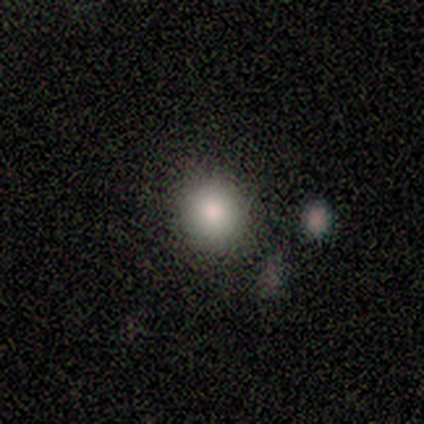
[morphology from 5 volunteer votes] type=smooth (60%); roundness=in between (67%); merging=minor disturbance (67%).